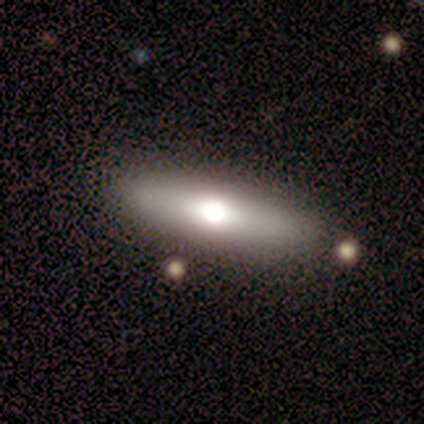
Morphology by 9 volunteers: featured or disk 56%, smooth 33%, star or artifact 11%. Down the decision tree: edge-on disk — yes (60%); edge-on bulge — rounded (100%); merging — none (75%).